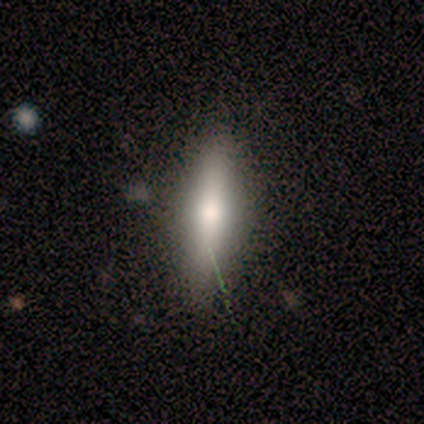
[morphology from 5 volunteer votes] This appears to be a smooth galaxy with no disk features (60%) that is cigar-shaped (100%). Merging: none (100%).